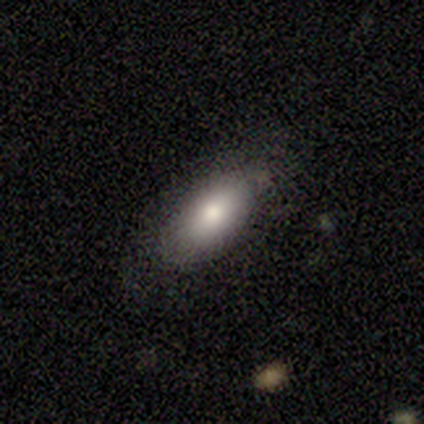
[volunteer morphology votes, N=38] Volunteers were most divided on "merging": none: 73%, minor disturbance: 19%, major disturbance: 5%, merger: 3%. More confident: smooth or featured — smooth (87%); how rounded — in between (85%).